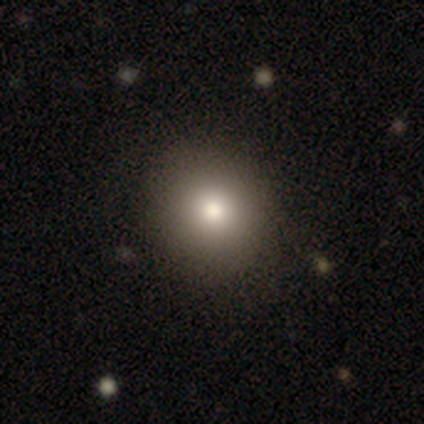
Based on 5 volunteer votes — This is likely a smooth galaxy (60%). How rounded: likely in between (67%). Merging: likely none (75%).